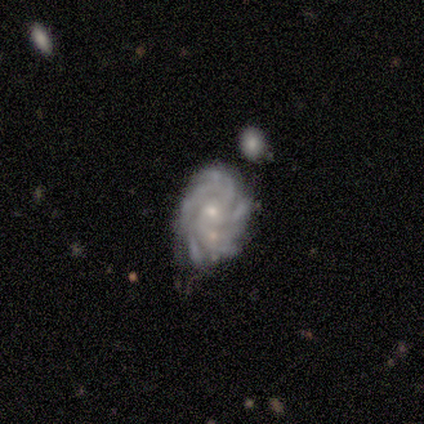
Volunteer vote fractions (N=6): smooth-or-featured: featured or disk: 100% | smooth: 0% | star or artifact: 0%
  disk-edge-on: no: 83% | yes: 17%
    bar: no: 100% | strong: 0% | weak: 0%
    has-spiral-arms: yes: 100% | no: 0%
      spiral-winding: medium: 80% | tight: 20% | loose: 0%
      spiral-arm-count: more than 4: 80% | 2: 20% | 1: 0% | 3: 0% | 4: 0% | can't tell: 0%
    bulge-size: small: 60% | moderate: 40% | dominant: 0% | large: 0% | none: 0%
  merging: minor disturbance: 50% | none: 33% | major disturbance: 17% | merger: 0%